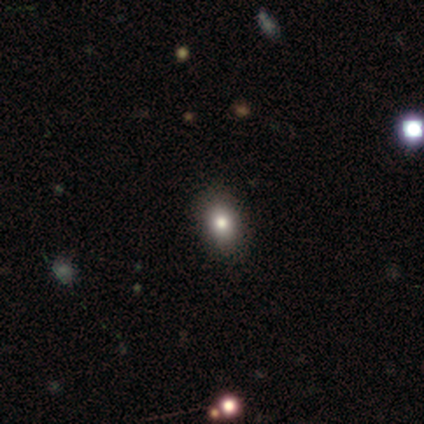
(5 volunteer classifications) This is clearly a smooth galaxy (80%). How rounded: clearly in between (100%). Merging: clearly none (100%).